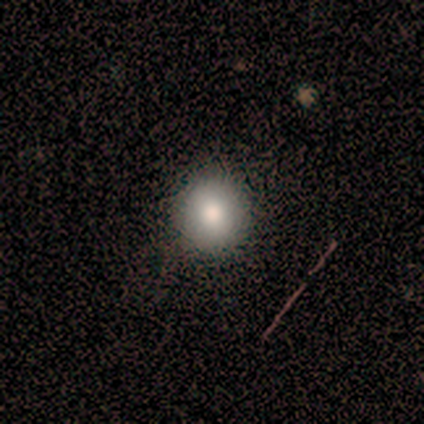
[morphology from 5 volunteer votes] Smooth or featured?
  - smooth: 60% *
  - featured or disk: 40%
  - star or artifact: 0%
How rounded?
  - round: 100% *
  - in between: 0%
  - cigar-shaped: 0%
Merging?
  - none: 100% *
  - minor disturbance: 0%
  - major disturbance: 0%
  - merger: 0%